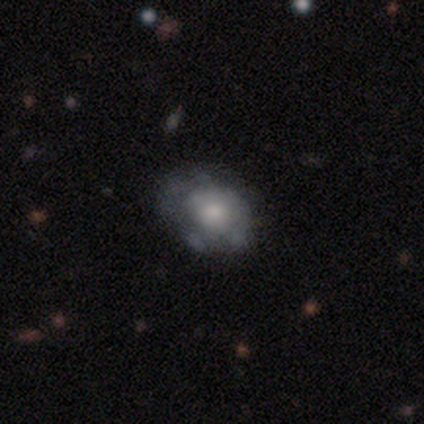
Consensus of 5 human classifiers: A smooth galaxy with no disk features (60%) that is round (67%). Merging: none (60%).